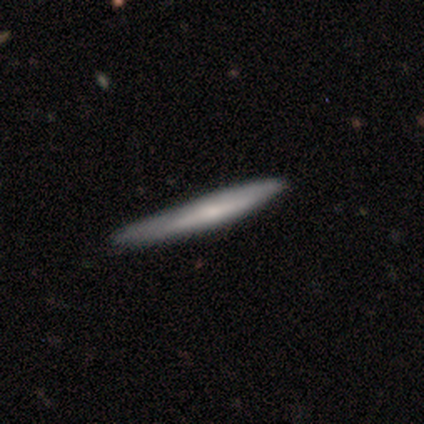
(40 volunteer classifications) Smooth or featured? 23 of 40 (57%) said smooth. How rounded? 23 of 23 (100%) said cigar-shaped. Merging? 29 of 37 (78%) said none.